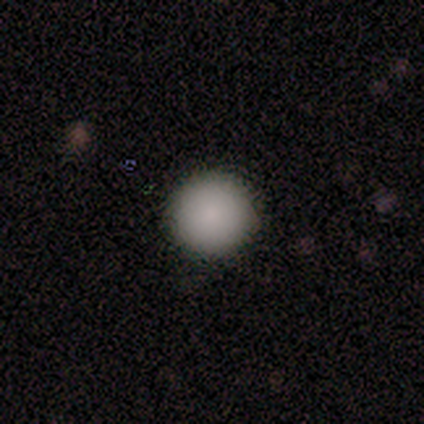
A smooth galaxy with no disk features (100%) that is round (100%). Merging: none (100%).